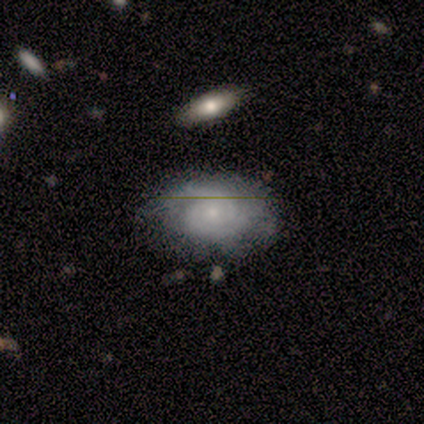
Smooth or featured? featured or disk (64%)
Edge-on disk? no (96%)
Bar? no (77%)
Spiral arms? yes (100%)
Spiral winding? tight (68%)
Spiral arm count? 2 (73%)
Bulge size? small (77%)
Merging? none (87%)